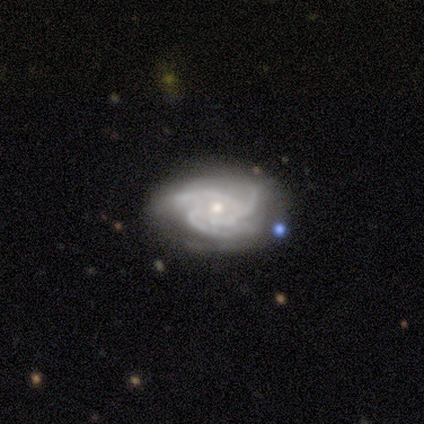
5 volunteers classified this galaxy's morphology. type=featured or disk (100%); edge-on=no (100%); bar=no (100%); spiral arms=yes (100%); winding=tight (60%); arm count=3 (80%); bulge=moderate (60%); merging=none (60%).